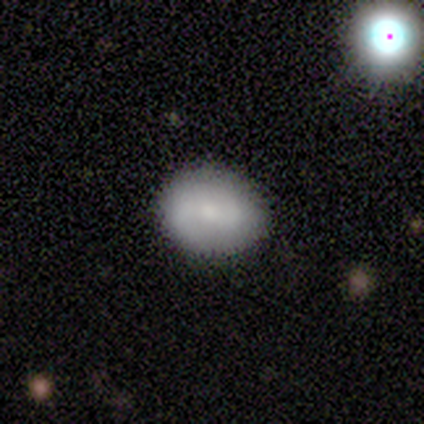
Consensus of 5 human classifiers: Smooth or featured: smooth — 60% (featured or disk — 20%)
How rounded: round — 100%
Merging: none — 100%